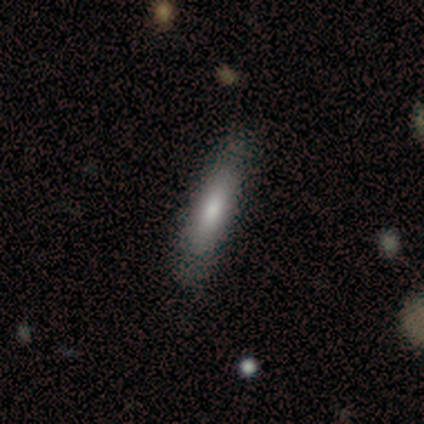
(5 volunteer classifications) A smooth galaxy with no disk features (80%) that is in between round and cigar-shaped (50%, tied with cigar-shaped).

Vote fractions:
- Smooth or featured? smooth: 80% / featured or disk: 20% / star or artifact: 0%
- How rounded? in between: 50% (tied) / cigar-shaped: 50% (tied) / round: 0%
- Merging? none: 100% / minor disturbance: 0% / major disturbance: 0% / merger: 0%